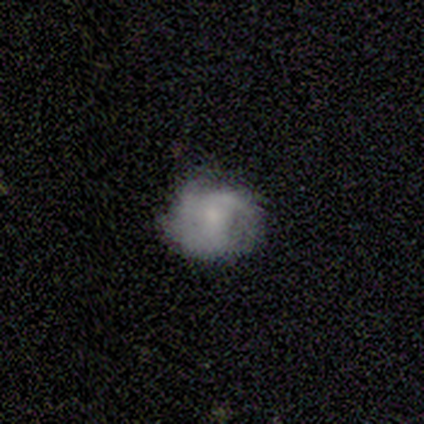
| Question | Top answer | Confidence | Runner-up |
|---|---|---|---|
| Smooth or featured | featured or disk | 75% | smooth (25%) |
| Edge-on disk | no | 100% | — |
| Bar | no | 67% | weak (33%) |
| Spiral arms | yes | 67% | no (33%) |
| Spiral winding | medium | 100% | — |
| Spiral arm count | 3 | 50% | tied: can't tell (50%) |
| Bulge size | small | 100% | — |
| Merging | none | 100% | — |